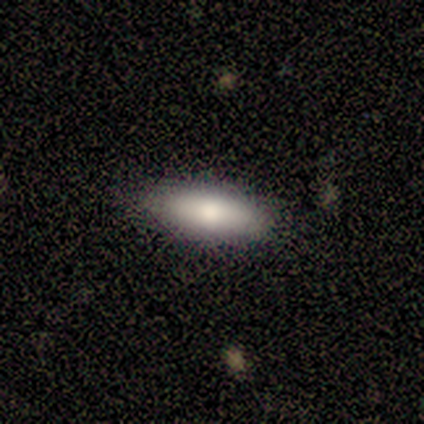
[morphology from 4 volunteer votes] Smooth or featured: smooth — 100%
How rounded: in between — 100%
Merging: none — 100%